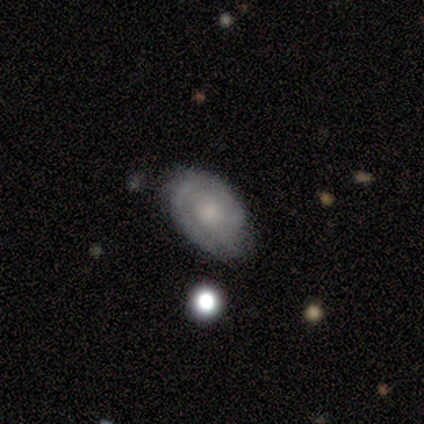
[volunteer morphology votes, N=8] Q: Smooth or featured?
A: featured or disk (50%); runner-up: smooth (38%)
Q: Edge-on disk?
A: no (100%)
Q: Bar?
A: no (100%)
Q: Spiral arms?
A: yes (100%)
Q: Spiral winding?
A: tight (75%); runner-up: medium (25%)
Q: Spiral arm count?
A: 2 (50%); runner-up: more than 4 (25%)
Q: Bulge size?
A: moderate (50%); tied with: small (50%)
Q: Merging?
A: minor disturbance (57%); runner-up: none (43%)